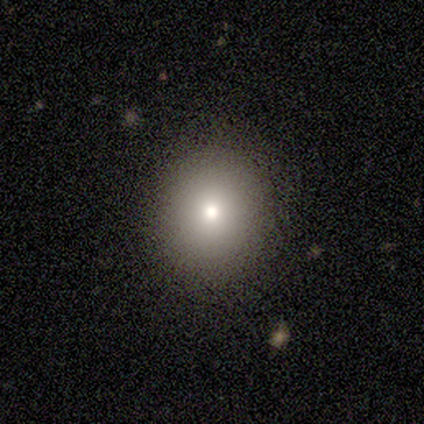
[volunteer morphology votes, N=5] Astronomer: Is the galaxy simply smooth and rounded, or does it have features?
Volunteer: smooth — 100%.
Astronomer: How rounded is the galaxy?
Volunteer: round — 100%.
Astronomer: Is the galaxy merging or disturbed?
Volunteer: none — 60% (runner-up: minor disturbance, 40%).